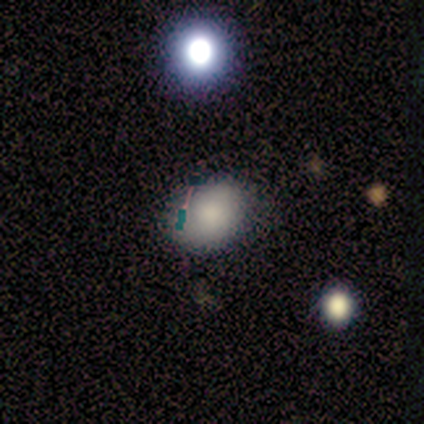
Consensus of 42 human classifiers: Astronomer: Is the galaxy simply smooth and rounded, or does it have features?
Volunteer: smooth — 86%.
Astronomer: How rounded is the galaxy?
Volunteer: in between — 61% (runner-up: round, 39%).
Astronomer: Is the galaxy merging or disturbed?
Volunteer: none — 68%.